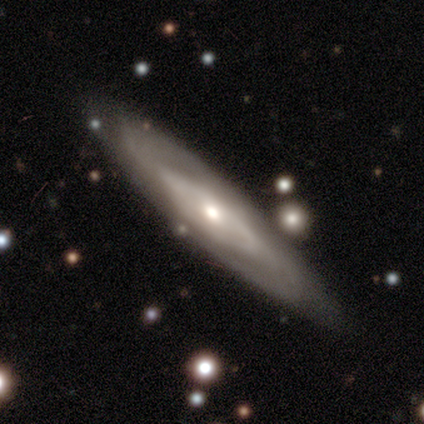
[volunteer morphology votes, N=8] type=featured or disk (75%); edge-on=yes (50%, tied with no); edge-on bulge=rounded (100%); merging=none (62%).